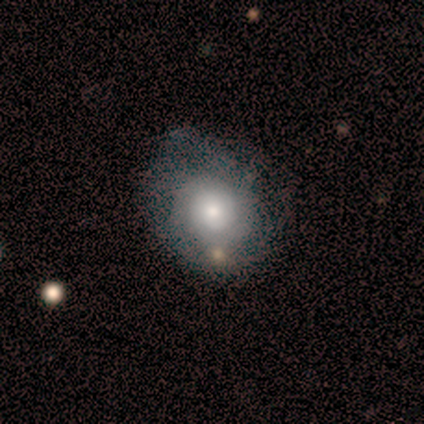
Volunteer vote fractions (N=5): This is likely a featured or disk galaxy (60%). It is clearly not viewed edge-on (100%). Bar: clearly no (100%). Spiral arm pattern: likely yes (67%). Spiral arm count: clearly can't tell (100%). Spiral winding: clearly tight (100%). Central bulge: clearly moderate (100%). Merging: likely none (60%).